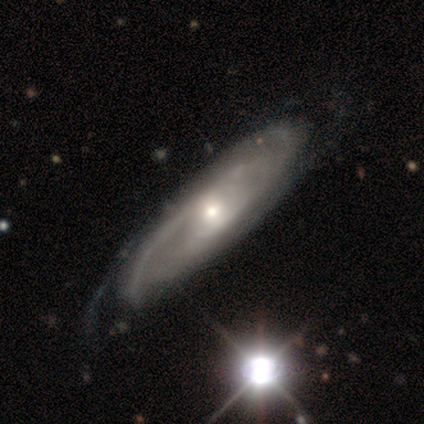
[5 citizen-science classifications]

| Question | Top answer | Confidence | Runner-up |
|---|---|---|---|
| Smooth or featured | featured or disk | 100% | — |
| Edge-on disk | no | 100% | — |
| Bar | weak | 60% | no (40%) |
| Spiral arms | yes | 100% | — |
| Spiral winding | tight | 80% | medium (20%) |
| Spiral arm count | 2 | 80% | can't tell (20%) |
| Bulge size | small | 60% | moderate (40%) |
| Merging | none | 80% | minor disturbance (20%) |